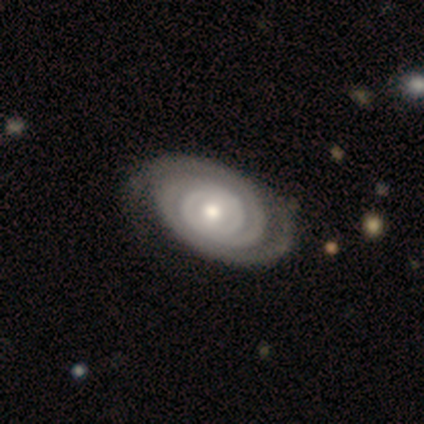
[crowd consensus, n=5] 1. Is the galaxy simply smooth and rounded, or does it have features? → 60% featured or disk, 40% star or artifact, 0% smooth.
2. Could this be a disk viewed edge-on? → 100% no, 0% yes.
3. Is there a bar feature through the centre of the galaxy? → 67% no, 33% weak, 0% strong.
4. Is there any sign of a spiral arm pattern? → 100% yes, 0% no.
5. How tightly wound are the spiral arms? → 67% tight, 33% medium, 0% loose.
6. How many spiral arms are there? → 100% 2, 0% 1, 0% 3, 0% 4, 0% more than 4, 0% can't tell.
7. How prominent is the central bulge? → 67% moderate, 33% small, 0% dominant, 0% large, 0% none.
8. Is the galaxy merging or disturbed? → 67% none, 33% major disturbance, 0% minor disturbance, 0% merger.